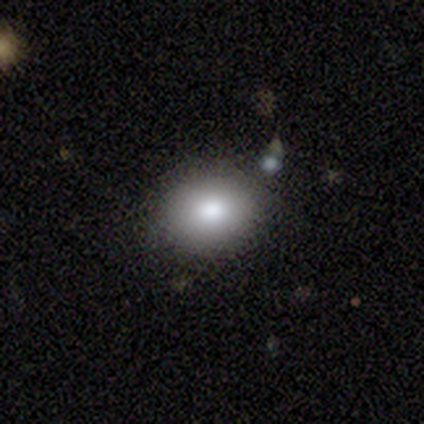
smooth 76%, featured or disk 14%, star or artifact 11%. Down the decision tree: how rounded — in between (54%); merging — none (85%).